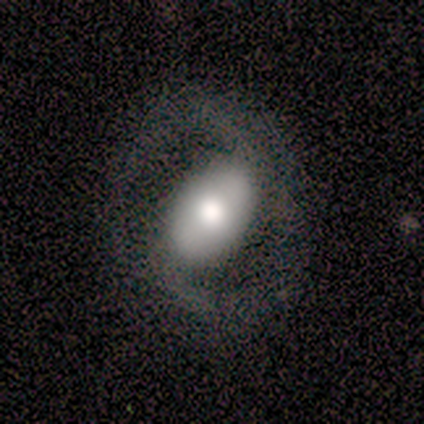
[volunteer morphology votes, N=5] A featured or disk galaxy (60%) with a weak bar (50%, tied with no), 2 (100%) tight (50%, tied with medium) spiral arms (100%) and a moderate central bulge (50%, tied with none).

Vote fractions:
- Smooth or featured? featured or disk: 60% / smooth: 40% / star or artifact: 0%
- Edge-on disk? no: 67% / yes: 33%
- Bar? weak: 50% (tied) / no: 50% (tied) / strong: 0%
- Spiral arms? yes: 100% / no: 0%
- Spiral winding? tight: 50% (tied) / medium: 50% (tied) / loose: 0%
- Spiral arm count? 2: 100% / 1: 0% / 3: 0% / 4: 0% / more than 4: 0% / can't tell: 0%
- Bulge size? moderate: 50% (tied) / none: 50% (tied) / dominant: 0% / large: 0% / small: 0%
- Merging? none: 60% / minor disturbance: 20% / major disturbance: 20% / merger: 0%